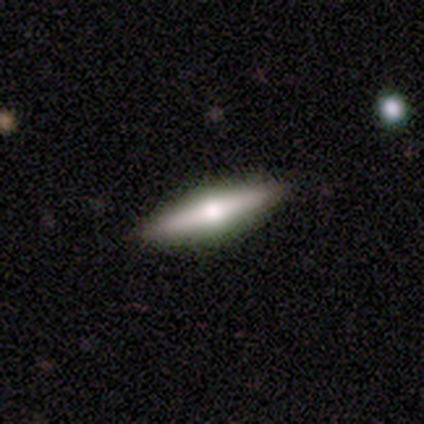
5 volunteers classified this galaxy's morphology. smooth 60%, featured or disk 40%, star or artifact 0%. Down the decision tree: how rounded — cigar-shaped (100%); merging — none (60%).